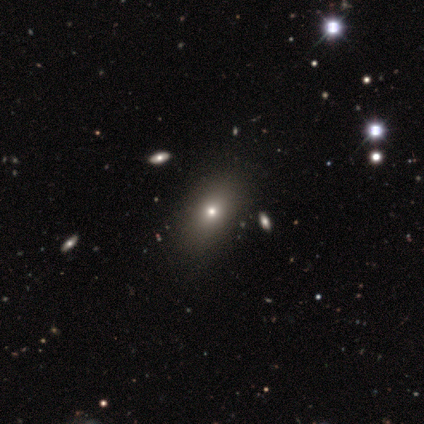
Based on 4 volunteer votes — smooth 50%, featured or disk 25%, star or artifact 25%. Down the decision tree: how rounded — in between (100%); merging — none (67%).